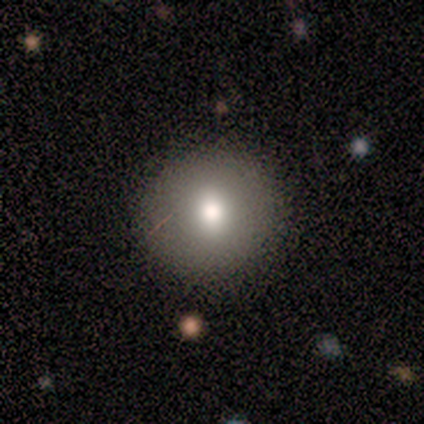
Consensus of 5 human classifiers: This appears to be a smooth galaxy with no disk features (100%) that is round (80%). Merging: none (100%).